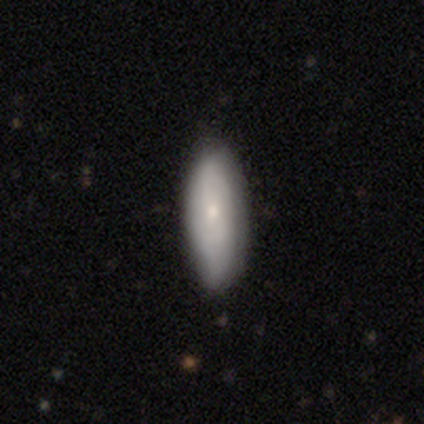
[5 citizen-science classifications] smooth-or-featured: featured or disk: 60% | smooth: 40% | star or artifact: 0%
  disk-edge-on: no: 100% | yes: 0%
    bar: no: 67% | weak: 33% | strong: 0%
    has-spiral-arms: yes: 67% | no: 33%
      spiral-winding: medium: 50% (tied) | loose: 50% (tied) | tight: 0%
      spiral-arm-count: 2: 50% (tied) | can't tell: 50% (tied) | 1: 0% | 3: 0% | 4: 0% | more than 4: 0%
    bulge-size: small: 100% | dominant: 0% | large: 0% | moderate: 0% | none: 0%
  merging: none: 40% (tied) | minor disturbance: 40% (tied) | major disturbance: 20% | merger: 0%